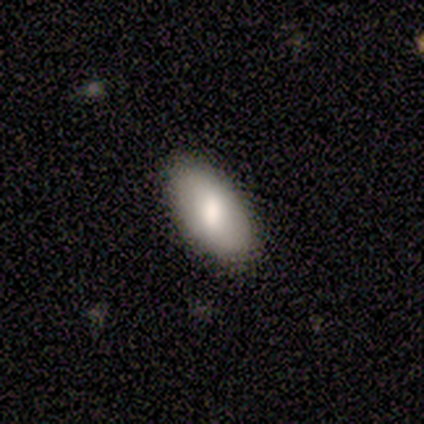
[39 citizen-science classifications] smooth-or-featured: smooth: 85% | featured or disk: 15% | star or artifact: 0%
  how-rounded: in between: 100% | round: 0% | cigar-shaped: 0%
  merging: none: 69% | minor disturbance: 8% | major disturbance: 0% | merger: 0%